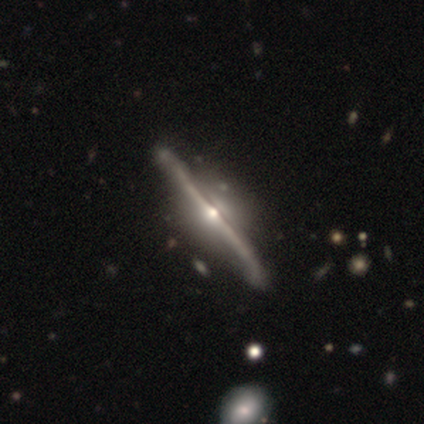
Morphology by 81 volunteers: A featured or disk galaxy (96%) viewed edge-on (96%) with a rounded central bulge (91%). Merging: none (45%).